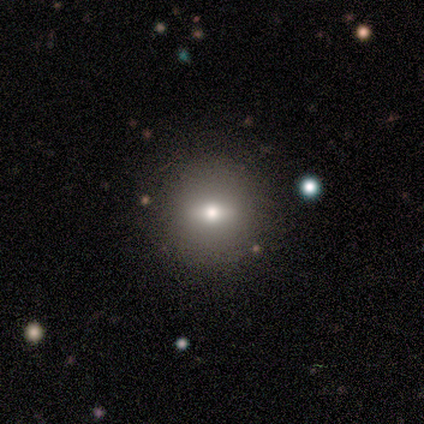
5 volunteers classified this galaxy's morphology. smooth-or-featured: smooth: 40% (tied) | star or artifact: 40% (tied) | featured or disk: 20%
  how-rounded: round: 100% | in between: 0% | cigar-shaped: 0%
  merging: none: 100% | minor disturbance: 0% | major disturbance: 0% | merger: 0%